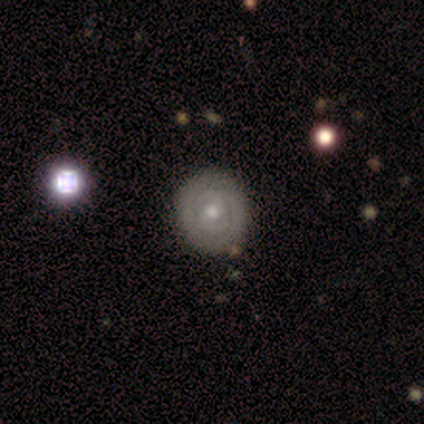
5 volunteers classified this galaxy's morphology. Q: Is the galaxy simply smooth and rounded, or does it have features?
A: featured or disk — 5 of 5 (100%).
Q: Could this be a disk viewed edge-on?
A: no — 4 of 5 (80%).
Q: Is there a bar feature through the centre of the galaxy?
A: weak — 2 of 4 (50%, tied with no).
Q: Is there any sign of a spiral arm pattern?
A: yes — 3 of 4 (75%).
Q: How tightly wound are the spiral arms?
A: medium — 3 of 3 (100%).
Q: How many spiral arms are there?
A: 2 — 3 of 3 (100%).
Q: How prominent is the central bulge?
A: moderate — 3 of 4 (75%).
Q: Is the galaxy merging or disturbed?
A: none — 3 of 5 (60%).